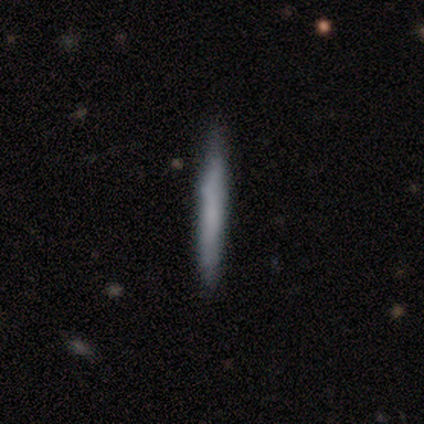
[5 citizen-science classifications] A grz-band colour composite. It shows a smooth galaxy with no disk features (60%) that is cigar-shaped (100%). Merging: none (100%).